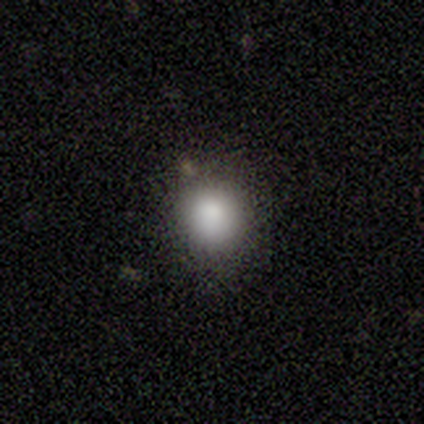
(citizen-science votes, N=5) Q: Smooth or featured?
A: smooth (80%); runner-up: star or artifact (20%)
Q: How rounded?
A: round (75%); runner-up: in between (25%)
Q: Merging?
A: none (75%); runner-up: minor disturbance (25%)